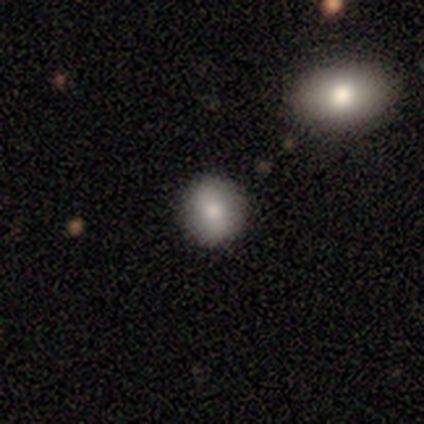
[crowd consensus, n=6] Smooth or featured? 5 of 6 (83%) said smooth. How rounded? 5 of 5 (100%) said round. Merging? 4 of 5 (80%) said none.